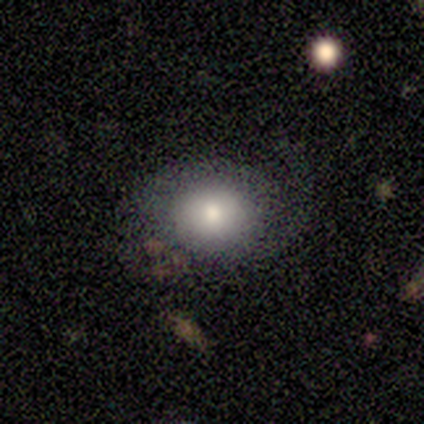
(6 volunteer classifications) A smooth galaxy with no disk features (50%, tied with featured or disk) that is in between round and cigar-shaped (67%). Merging: none (67%).